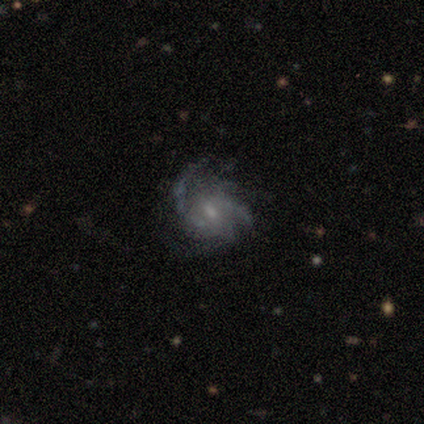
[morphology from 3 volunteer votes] smooth_or_featured: featured or disk (p=1.00)
disk_edge_on: no (p=1.00)
bar: no (p=1.00)
has_spiral_arms: yes (p=1.00)
spiral_winding: tight (p=0.67) [alt: medium p=0.33]
spiral_arm_count: 4 (p=1.00)
bulge_size: moderate (p=0.67) [alt: small p=0.33]
merging: none (p=0.33) [tied with: minor disturbance p=0.33, major disturbance p=0.33]